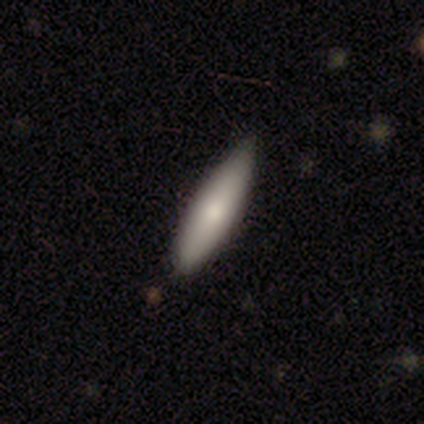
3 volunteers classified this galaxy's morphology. This is likely a smooth galaxy (67%). How rounded: possibly in between (50%, tied with cigar-shaped). Merging: clearly minor disturbance (100%).